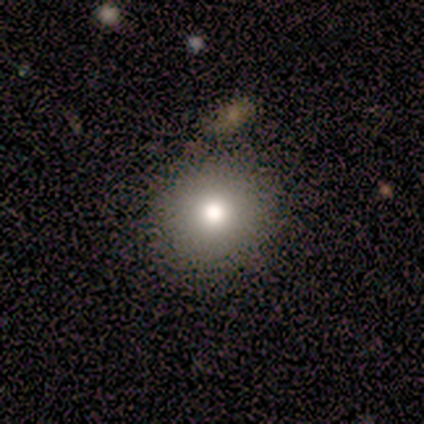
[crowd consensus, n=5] smooth_or_featured: smooth (p=0.80) [alt: star or artifact p=0.20]
how_rounded: round (p=1.00)
merging: none (p=0.75) [alt: merger p=0.25]